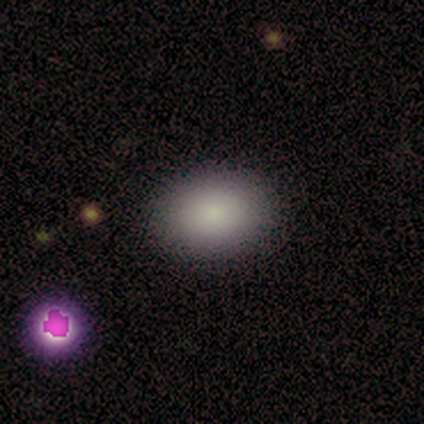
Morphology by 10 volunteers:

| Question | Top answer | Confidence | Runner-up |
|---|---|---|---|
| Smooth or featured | smooth | 80% | star or artifact (20%) |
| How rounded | in between | 88% | round (12%) |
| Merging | none | 88% | minor disturbance (12%) |